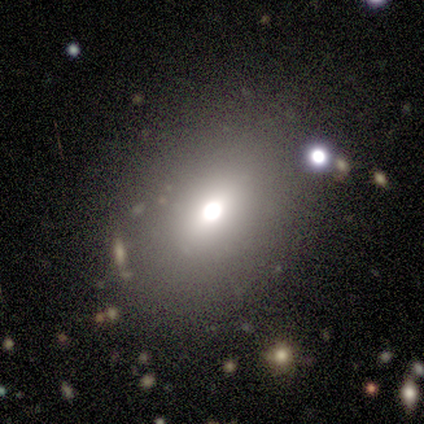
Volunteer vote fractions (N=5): A smooth galaxy with no disk features (80%) that is round (50%, tied with in between). Merging: none (40%).